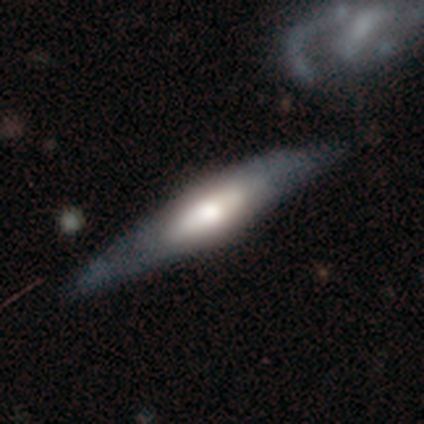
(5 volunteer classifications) Smooth or featured? featured or disk (60%)
Edge-on disk? yes (100%)
Edge-on bulge? rounded (100%)
Merging? none (75%)